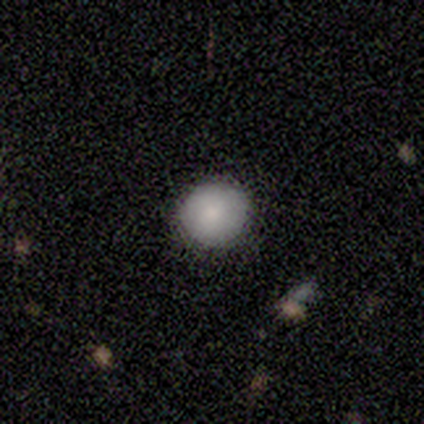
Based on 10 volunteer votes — Smooth or featured? 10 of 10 (100%) said smooth. How rounded? 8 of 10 (80%) said round. Merging? 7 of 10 (70%) said none.